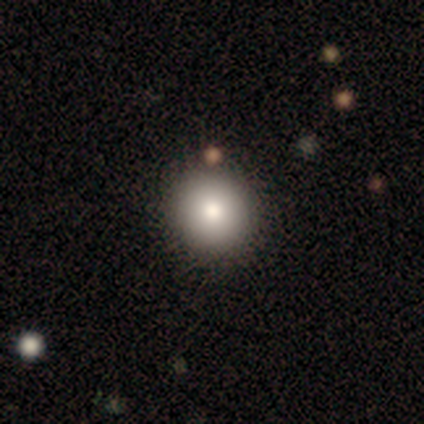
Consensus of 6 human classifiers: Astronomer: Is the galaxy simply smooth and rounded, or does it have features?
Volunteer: smooth — 100%.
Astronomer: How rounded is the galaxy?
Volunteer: round — 100%.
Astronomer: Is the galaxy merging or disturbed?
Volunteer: none — 100%.